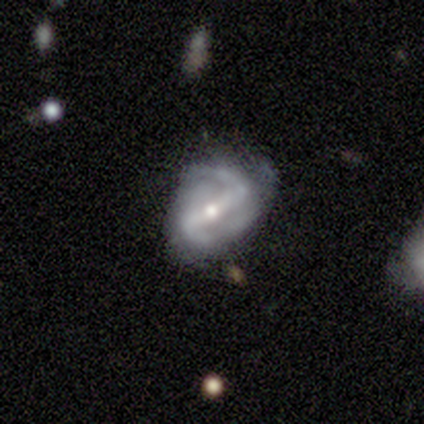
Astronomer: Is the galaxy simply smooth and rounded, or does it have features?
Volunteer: featured or disk — 85%.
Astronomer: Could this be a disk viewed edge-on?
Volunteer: no — 94%.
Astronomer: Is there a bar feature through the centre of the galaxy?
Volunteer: strong — 77%.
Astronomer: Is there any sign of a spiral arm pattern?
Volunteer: yes — 94%.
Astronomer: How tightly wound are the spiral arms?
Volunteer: medium — 45% (runner-up: tight, 28%).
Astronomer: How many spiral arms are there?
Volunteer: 2 — 90%.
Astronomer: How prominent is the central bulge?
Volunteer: moderate — 61%.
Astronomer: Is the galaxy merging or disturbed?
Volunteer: none — 49% (runner-up: minor disturbance, 38%).